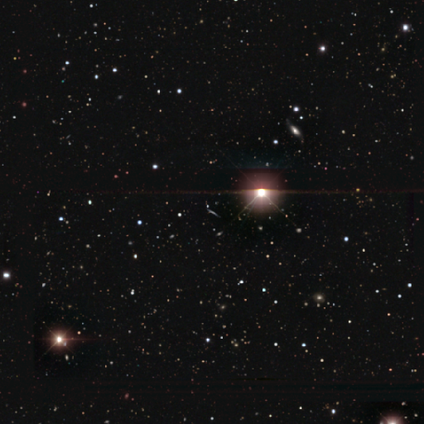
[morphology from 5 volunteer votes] Smooth or featured? star or artifact (60%)